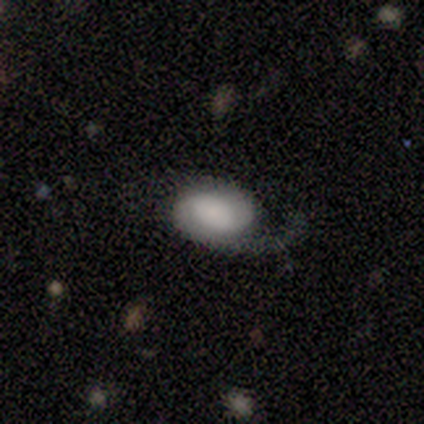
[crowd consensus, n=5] Smooth or featured?
  - featured or disk: 80% *
  - star or artifact: 20%
  - smooth: 0%
Edge-on disk?
  - no: 100% *
  - yes: 0%
Bar?
  - weak: 50% * (tied)
  - no: 50% * (tied)
  - strong: 0%
Spiral arms?
  - yes: 100% *
  - no: 0%
Spiral winding?
  - medium: 50% *
  - tight: 25%
  - loose: 25%
Spiral arm count?
  - 1: 50% *
  - 2: 25%
  - can't tell: 25%
  - 3: 0%
  - 4: 0%
  - more than 4: 0%
Bulge size?
  - none: 50% *
  - moderate: 25%
  - small: 25%
  - dominant: 0%
  - large: 0%
Merging?
  - minor disturbance: 50% *
  - none: 25%
  - major disturbance: 25%
  - merger: 0%